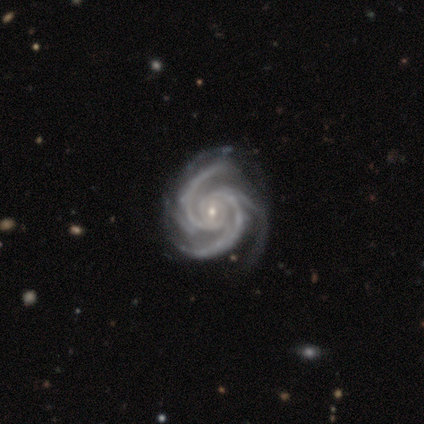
Smooth or featured? 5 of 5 (100%) said featured or disk. Edge-on disk? 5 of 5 (100%) said no. Bar? 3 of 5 (60%) said no. Spiral arms? 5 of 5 (100%) said yes. Spiral winding? 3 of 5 (60%) said tight. Spiral arm count? 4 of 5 (80%) said 3. Bulge size? 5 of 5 (100%) said small. Merging? 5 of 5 (100%) said none.